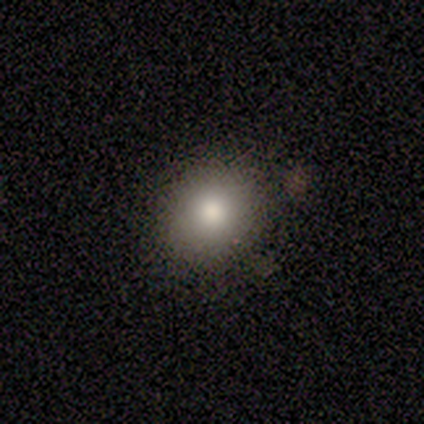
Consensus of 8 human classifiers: smooth_or_featured: smooth (p=0.88) [alt: featured or disk p=0.12]
how_rounded: round (p=0.71) [alt: in between p=0.29]
merging: none (p=0.88) [alt: minor disturbance p=0.12]